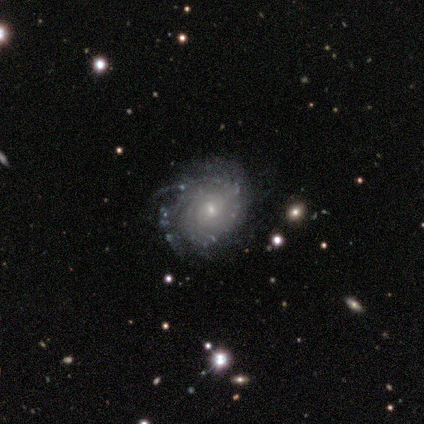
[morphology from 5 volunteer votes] Q: Smooth or featured?
A: featured or disk (100%)
Q: Edge-on disk?
A: no (100%)
Q: Bar?
A: weak (60%); runner-up: no (40%)
Q: Spiral arms?
A: yes (100%)
Q: Spiral winding?
A: tight (100%)
Q: Spiral arm count?
A: more than 4 (40%); runner-up: 2 (20%)
Q: Bulge size?
A: small (80%); runner-up: moderate (20%)
Q: Merging?
A: none (100%)